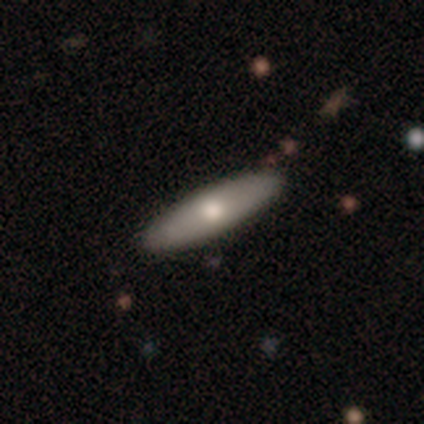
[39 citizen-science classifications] Smooth or featured? 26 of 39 (67%) said smooth. How rounded? 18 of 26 (69%) said cigar-shaped. Merging? 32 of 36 (89%) said none.